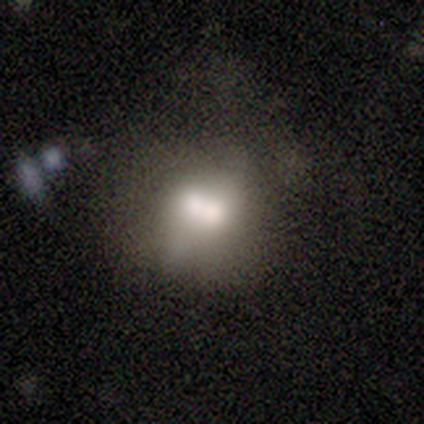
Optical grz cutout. It shows a smooth galaxy with no disk features (60%) that is in between round and cigar-shaped (67%). Merging: merger (40%).